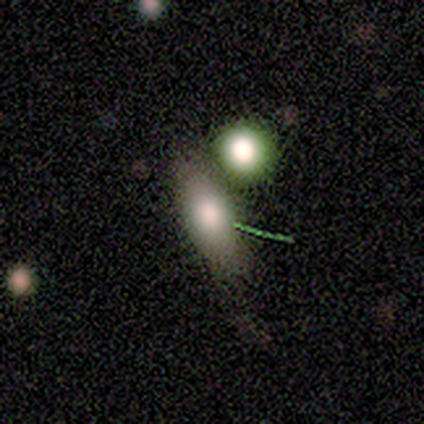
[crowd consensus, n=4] smooth_or_featured: smooth (p=1.00)
how_rounded: in between (p=0.75) [alt: cigar-shaped p=0.25]
merging: none (p=0.75) [alt: merger p=0.25]